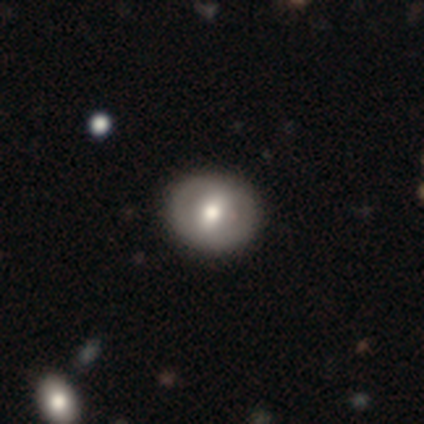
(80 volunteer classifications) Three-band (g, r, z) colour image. It shows a smooth galaxy with no disk features (48%, tied with featured or disk) that is round (76%). Merging: none (47%).